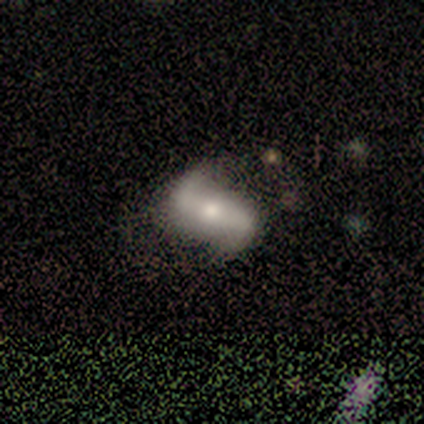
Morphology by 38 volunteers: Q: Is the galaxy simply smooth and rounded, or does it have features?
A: featured or disk — 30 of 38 (79%).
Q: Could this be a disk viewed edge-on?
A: no — 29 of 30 (97%).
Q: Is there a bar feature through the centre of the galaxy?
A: strong — 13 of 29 (45%).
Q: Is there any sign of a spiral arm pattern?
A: yes — 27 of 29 (93%).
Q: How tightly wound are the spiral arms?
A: loose — 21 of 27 (78%).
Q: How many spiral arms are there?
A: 2 — 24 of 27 (89%).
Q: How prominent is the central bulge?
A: moderate — 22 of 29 (76%).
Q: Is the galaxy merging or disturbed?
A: none — 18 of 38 (47%).